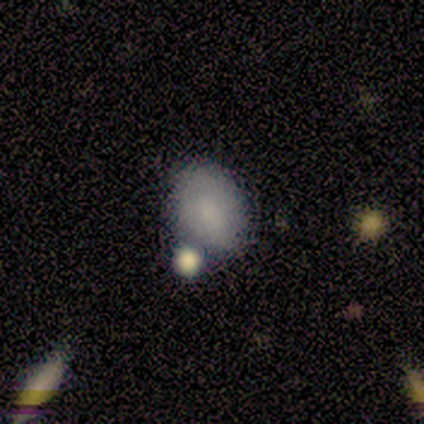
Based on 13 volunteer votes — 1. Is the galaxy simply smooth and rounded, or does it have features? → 69% smooth, 15% featured or disk, 15% star or artifact.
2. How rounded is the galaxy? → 78% in between, 22% round, 0% cigar-shaped.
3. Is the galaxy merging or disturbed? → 82% none, 18% minor disturbance, 0% major disturbance, 0% merger.